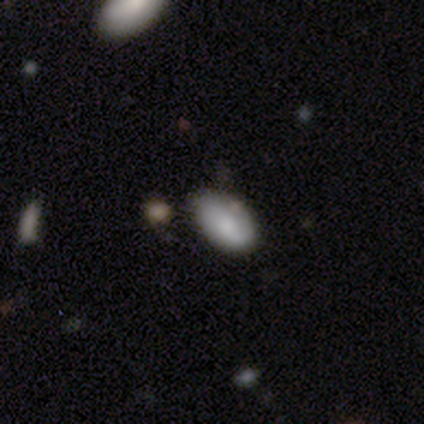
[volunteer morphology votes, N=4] Volunteers were most divided on "smooth or featured" (2-way tie): smooth: 50%, star or artifact: 50%, featured or disk: 0%; "merging" (2-way tie): none: 50%, minor disturbance: 50%, major disturbance: 0%, merger: 0%. More confident: how rounded — in between (100%).